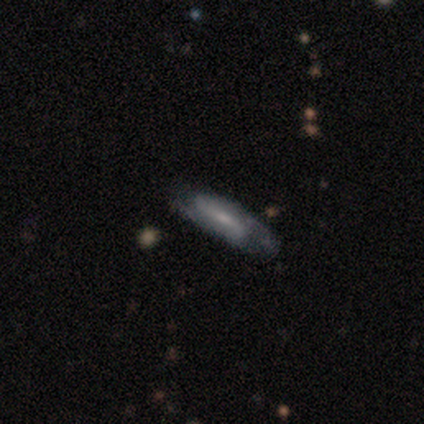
A featured or disk galaxy (75%) with a strong bar (50%, tied with weak), 2 (50%, tied with 3) medium (50%, tied with loose) spiral arms (100%) and a moderate central bulge (50%, tied with small). Merging: none (50%, tied with minor disturbance).